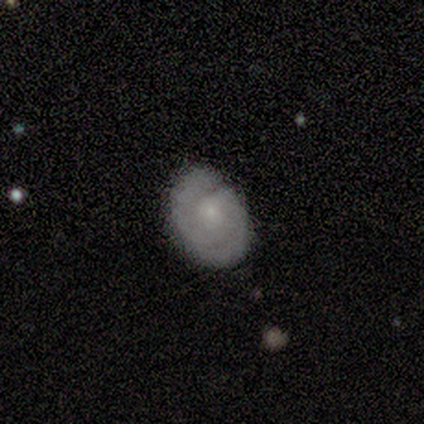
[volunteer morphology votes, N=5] This is clearly a featured or disk galaxy (100%). It is clearly not viewed edge-on (100%). Bar: clearly no (80%). Spiral arm pattern: clearly yes (80%). Spiral arm count: clearly 2 (100%). Spiral winding: likely tight (75%). Central bulge: likely small (60%). Merging: clearly none (100%).